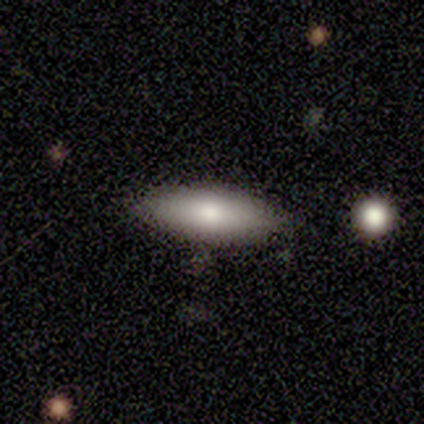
Smooth or featured? smooth (60%)
How rounded? in between (67%)
Merging? none (100%)